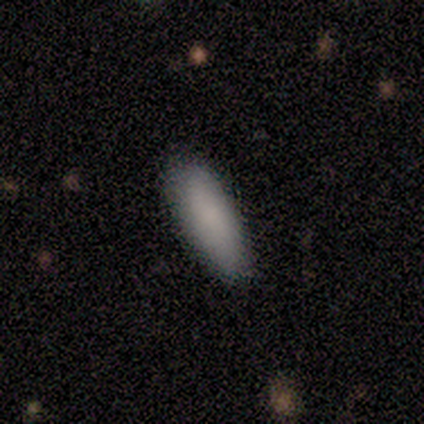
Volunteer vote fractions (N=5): Consensus on every question: smooth or featured — smooth (100%); how rounded — in between (100%); merging — none (100%).